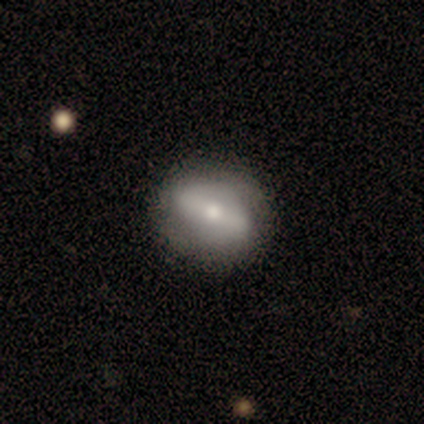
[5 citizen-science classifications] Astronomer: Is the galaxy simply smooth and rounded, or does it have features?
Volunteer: featured or disk — 60% (runner-up: smooth, 40%).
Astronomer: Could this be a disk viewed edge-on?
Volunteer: no — 100%.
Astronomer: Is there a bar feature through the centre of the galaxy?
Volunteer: strong — 67%.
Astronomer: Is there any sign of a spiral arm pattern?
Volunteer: no — 67%.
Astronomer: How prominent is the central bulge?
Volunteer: small — 100%.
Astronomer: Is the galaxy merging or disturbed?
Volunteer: none — 80%.